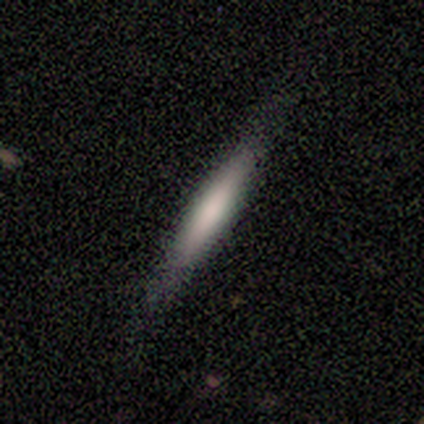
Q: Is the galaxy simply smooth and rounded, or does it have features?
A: smooth — 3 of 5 (60%).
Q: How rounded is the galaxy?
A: cigar-shaped — 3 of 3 (100%).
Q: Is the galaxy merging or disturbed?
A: none — 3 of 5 (60%).